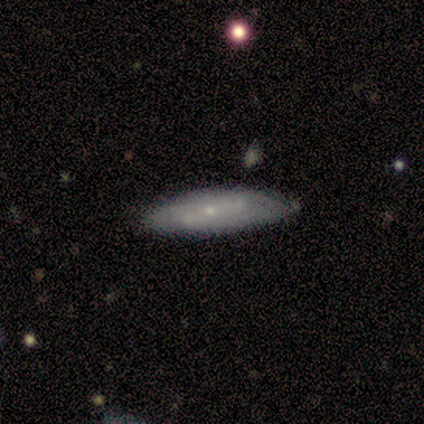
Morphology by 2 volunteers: This is possibly a smooth galaxy (50%, tied with featured or disk). How rounded: clearly cigar-shaped (100%). Merging: clearly none (100%).